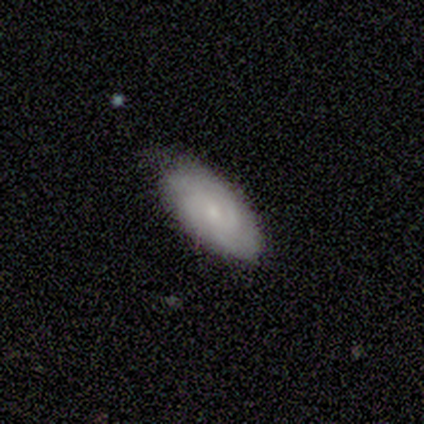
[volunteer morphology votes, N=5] Volunteers were most divided on "smooth or featured": smooth: 60%, featured or disk: 40%, star or artifact: 0%. More confident: merging — minor disturbance (80%); how rounded — in between (67%).